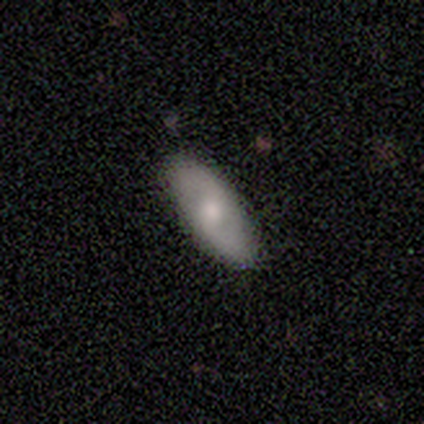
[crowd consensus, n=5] Morphology: type=featured or disk (60%); edge-on=no (100%); bar=no (67%); spiral arms=yes (100%); winding=loose (67%); arm count=2 (100%); bulge=moderate (67%); merging=none (80%).